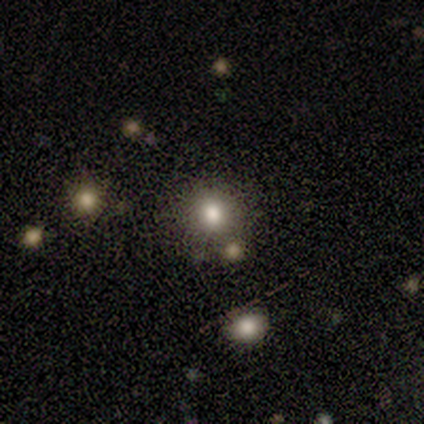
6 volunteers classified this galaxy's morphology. Volunteers were most divided on "merging": none: 80%, minor disturbance: 20%, major disturbance: 0%, merger: 0%. More confident: how rounded — round (100%); smooth or featured — smooth (83%).